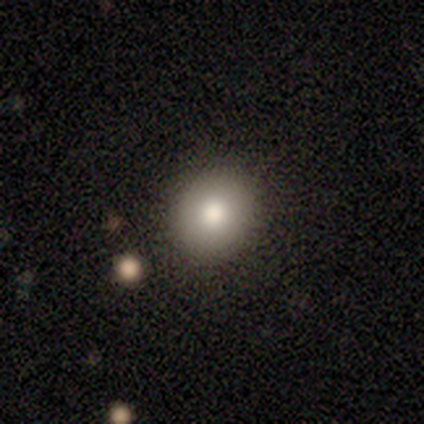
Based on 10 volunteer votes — smooth_or_featured: smooth (p=0.90) [alt: featured or disk p=0.10]
how_rounded: round (p=0.78) [alt: in between p=0.11]
merging: none (p=0.90) [alt: minor disturbance p=0.10]